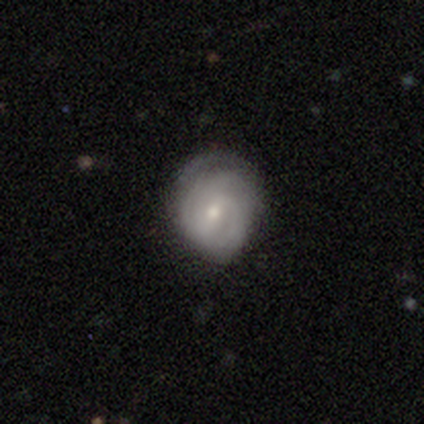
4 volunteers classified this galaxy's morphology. Smooth or featured? featured or disk (75%)
Edge-on disk? no (100%)
Bar? weak (100%)
Spiral arms? yes (100%)
Spiral winding? medium (67%)
Spiral arm count? 2 (33%, tied with 3 and can't tell)
Bulge size? moderate (67%)
Merging? minor disturbance (75%)